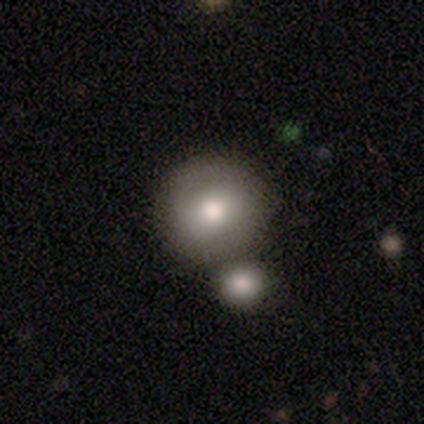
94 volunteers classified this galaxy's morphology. type=smooth (67%); roundness=round (94%); merging=none (63%).